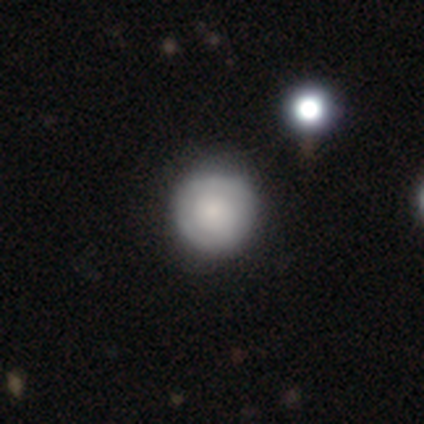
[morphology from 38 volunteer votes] A smooth galaxy with no disk features (63%) that is round (96%). Merging: none (62%).